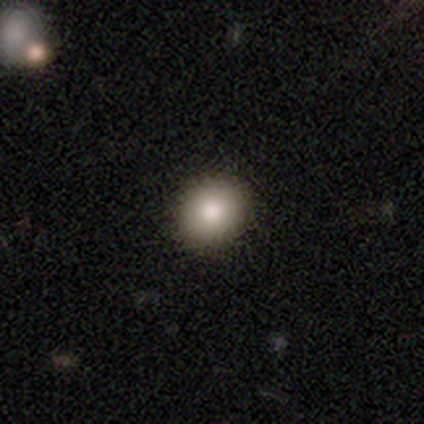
Smooth or featured: smooth — 80% (featured or disk — 20%)
How rounded: round — 100%
Merging: none — 100%